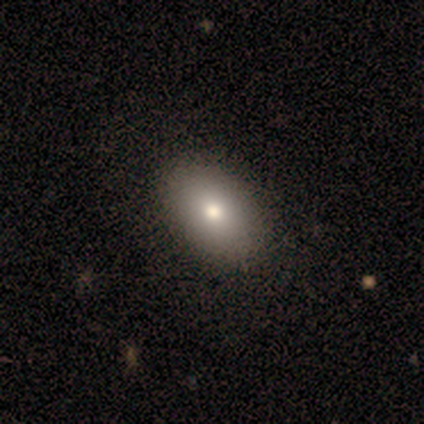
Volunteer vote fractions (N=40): smooth_or_featured: smooth (p=0.82) [alt: featured or disk p=0.12]
how_rounded: in between (p=0.88) [alt: round p=0.09]
merging: none (p=0.71) [alt: minor disturbance p=0.08]